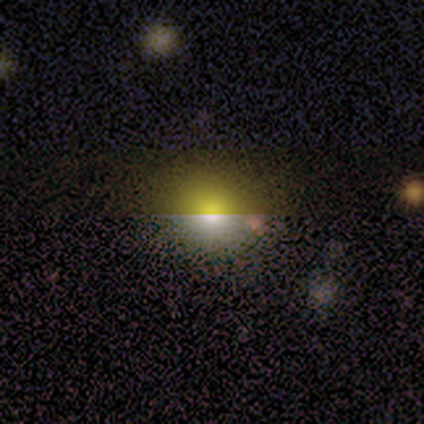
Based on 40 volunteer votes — Smooth or featured?
  - smooth: 55% *
  - star or artifact: 30%
  - featured or disk: 15%
How rounded?
  - round: 82% *
  - in between: 18%
  - cigar-shaped: 0%
Merging?
  - none: 54% *
  - merger: 7%
  - minor disturbance: 4%
  - major disturbance: 0%